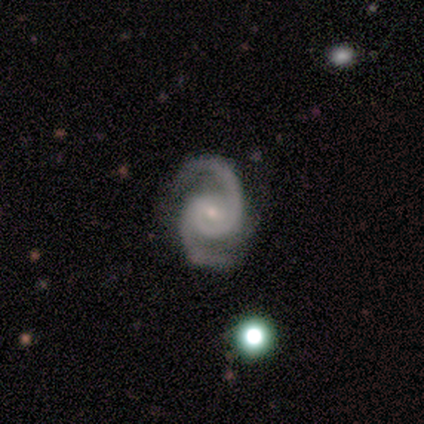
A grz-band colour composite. It shows a featured or disk galaxy (88%) with a weak bar (86%), 2 (86%) medium (57%) spiral arms (100%) and a small central bulge (86%). Merging: none (75%).